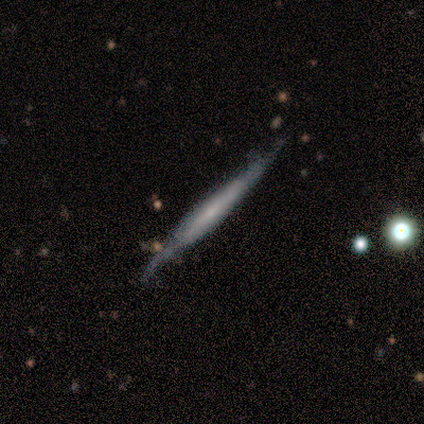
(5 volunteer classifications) Morphology: type=smooth (80%); roundness=cigar-shaped (75%); merging=none (80%).